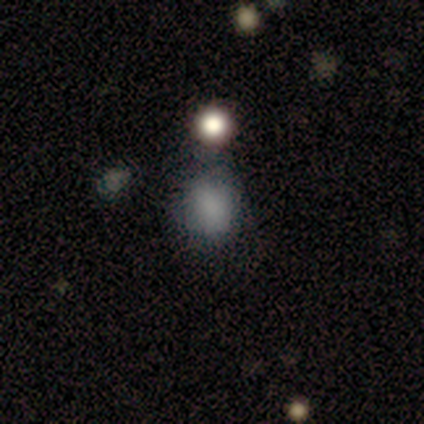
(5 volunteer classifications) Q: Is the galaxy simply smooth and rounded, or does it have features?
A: smooth — 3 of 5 (60%).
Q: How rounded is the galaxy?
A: round — 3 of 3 (100%).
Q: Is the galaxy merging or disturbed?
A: none — 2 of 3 (67%).